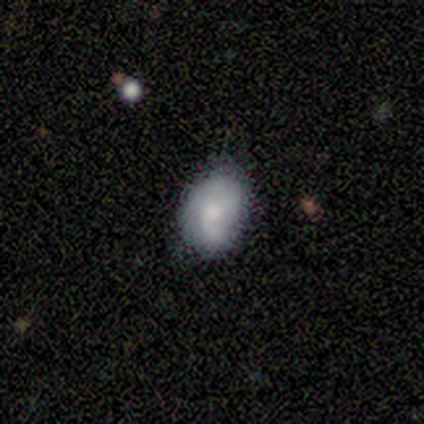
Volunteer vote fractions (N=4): Overall: smooth (75%). How rounded: in between (100%). Merging: none (50%, tied with minor disturbance).